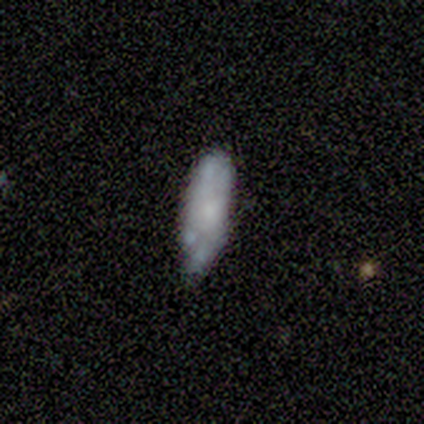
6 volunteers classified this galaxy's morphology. Smooth or featured? smooth (67%)
How rounded? in between (50%, tied with cigar-shaped)
Merging? none (83%)